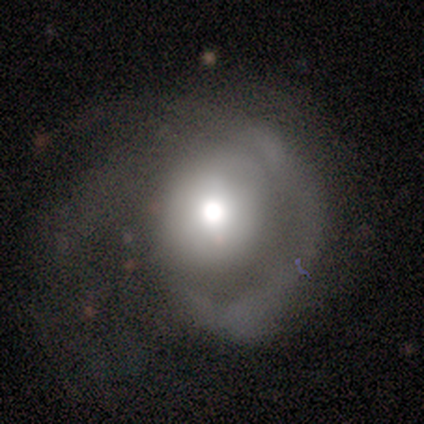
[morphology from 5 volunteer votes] This appears to be a featured or disk galaxy (60%) with no bar (67%), 2 (100%) tight (100%) spiral arms (67%) and a moderate central bulge (67%). Merging: major disturbance (67%).